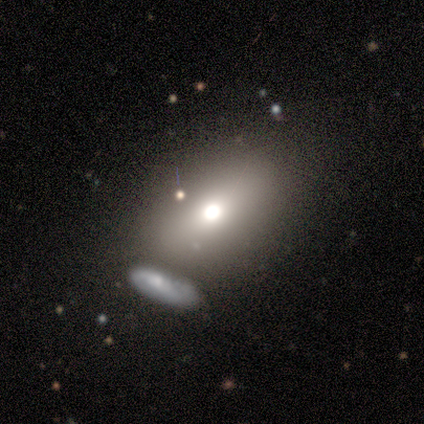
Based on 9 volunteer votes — smooth-or-featured: smooth: 67% | featured or disk: 22% | star or artifact: 11%
  how-rounded: round: 50% | in between: 33% | cigar-shaped: 17%
  merging: none: 88% | merger: 12% | minor disturbance: 0% | major disturbance: 0%